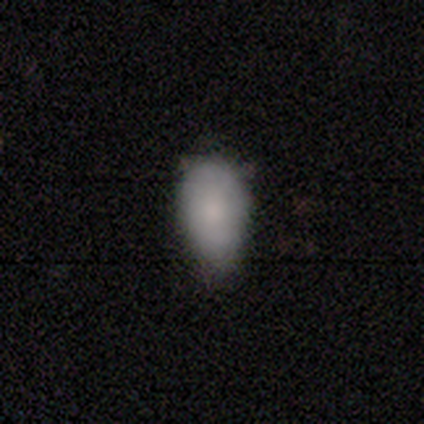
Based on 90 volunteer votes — Smooth or featured?
  - smooth: 80% *
  - featured or disk: 10%
  - star or artifact: 10%
How rounded?
  - in between: 94% *
  - cigar-shaped: 4%
  - round: 1%
Merging?
  - minor disturbance: 49% *
  - none: 42%
  - major disturbance: 7%
  - merger: 1%